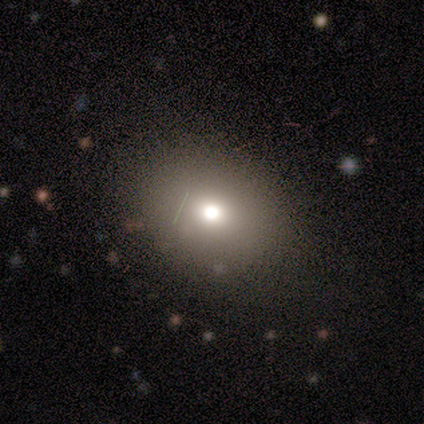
Q: Smooth or featured?
A: smooth (60%); runner-up: featured or disk (20%)
Q: How rounded?
A: round (67%); runner-up: in between (33%)
Q: Merging?
A: none (75%); runner-up: minor disturbance (25%)